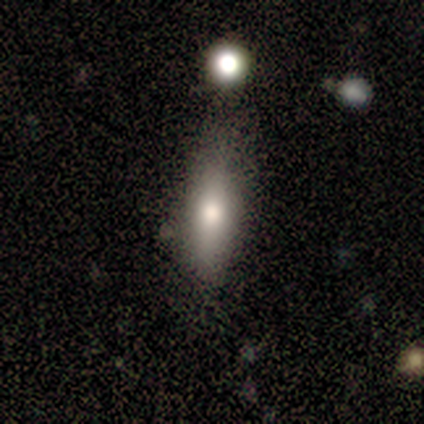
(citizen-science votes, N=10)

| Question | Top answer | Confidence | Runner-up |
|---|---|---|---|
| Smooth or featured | smooth | 80% | featured or disk (10%) |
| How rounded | in between | 50% | cigar-shaped (38%) |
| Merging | none | 89% | minor disturbance (11%) |